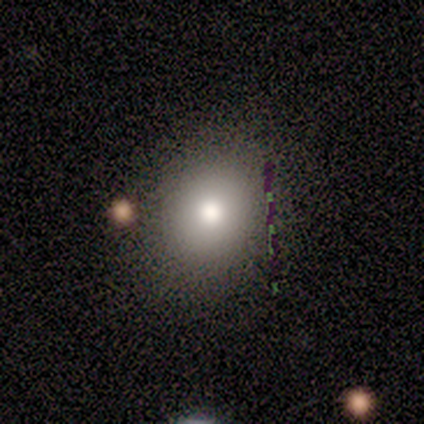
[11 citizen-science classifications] This is clearly a smooth galaxy (82%). How rounded: likely round (78%). Merging: likely none (78%).